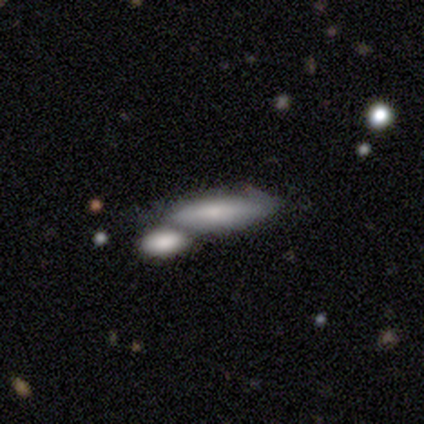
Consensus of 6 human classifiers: A smooth galaxy with no disk features (83%) that is cigar-shaped (60%). Merging: none (60%).